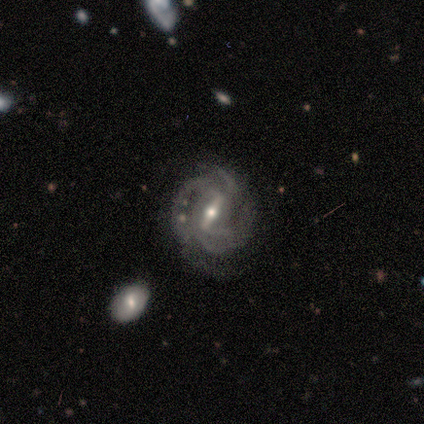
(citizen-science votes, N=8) A featured or disk galaxy (100%) with a strong bar (62%), 3 (50%) tight (38%, tied with medium) spiral arms (100%) and a moderate central bulge (62%). Merging: none (75%).